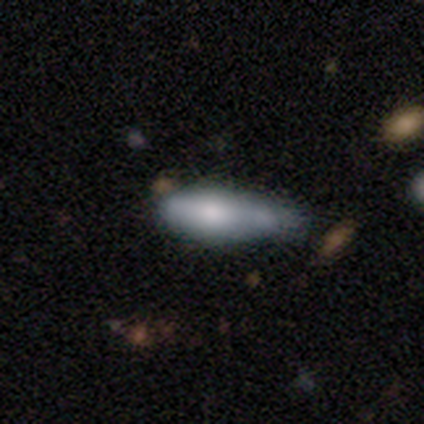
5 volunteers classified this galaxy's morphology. Overall: smooth (80%). How rounded: in between (75%). Merging: minor disturbance (60%; none 20%).